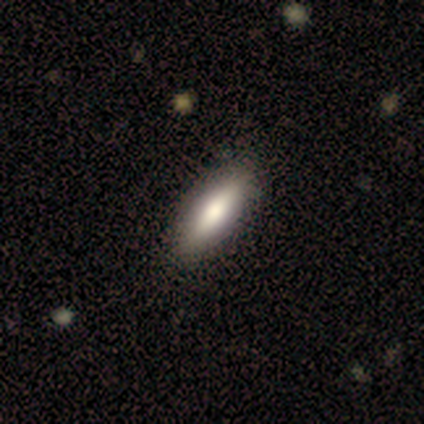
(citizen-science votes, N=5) Smooth or featured? 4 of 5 (80%) said smooth. How rounded? 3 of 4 (75%) said in between. Merging? 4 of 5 (80%) said none.